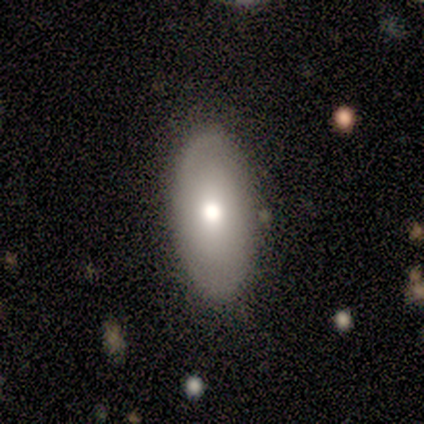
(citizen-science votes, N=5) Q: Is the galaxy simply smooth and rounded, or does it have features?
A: smooth — 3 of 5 (60%).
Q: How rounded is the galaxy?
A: in between — 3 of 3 (100%).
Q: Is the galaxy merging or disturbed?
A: none — 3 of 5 (60%).